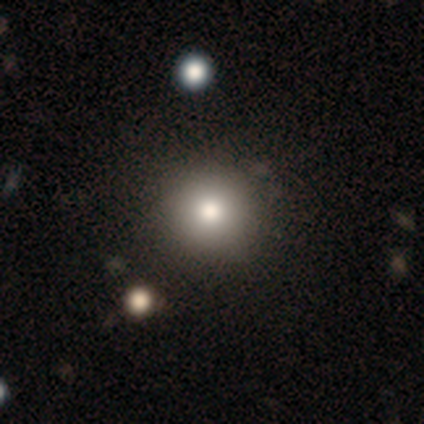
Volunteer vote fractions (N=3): smooth_or_featured: star or artifact (p=1.00)